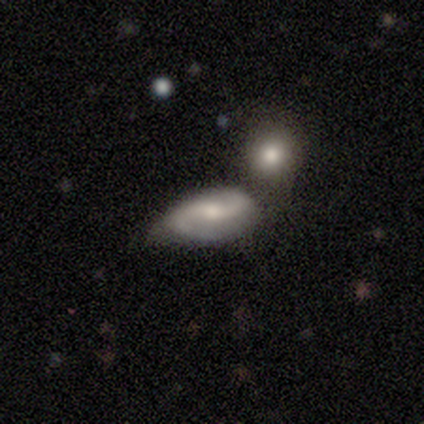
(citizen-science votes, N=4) smooth-or-featured: featured or disk: 50% | smooth: 25% | star or artifact: 25%
  disk-edge-on: no: 100% | yes: 0%
    bar: no: 100% | strong: 0% | weak: 0%
    has-spiral-arms: yes: 100% | no: 0%
      spiral-winding: loose: 100% | tight: 0% | medium: 0%
      spiral-arm-count: 2: 100% | 1: 0% | 3: 0% | 4: 0% | more than 4: 0% | can't tell: 0%
    bulge-size: moderate: 100% | dominant: 0% | large: 0% | small: 0% | none: 0%
  merging: none: 100% | minor disturbance: 0% | major disturbance: 0% | merger: 0%